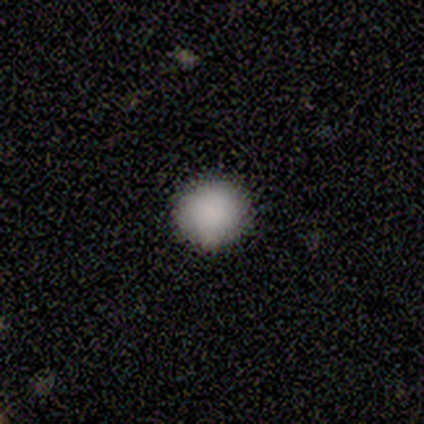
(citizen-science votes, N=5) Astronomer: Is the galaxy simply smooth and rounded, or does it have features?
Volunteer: smooth — 100%.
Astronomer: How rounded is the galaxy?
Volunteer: round — 100%.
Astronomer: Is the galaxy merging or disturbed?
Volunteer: none — 100%.